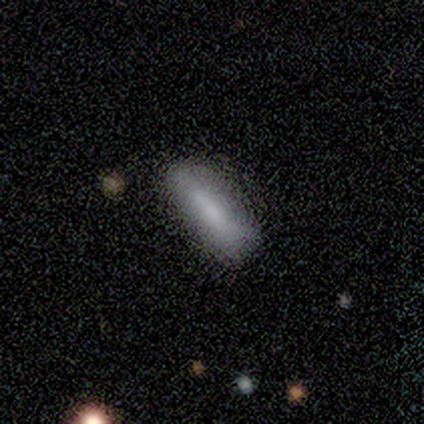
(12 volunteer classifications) Smooth or featured: smooth — 75% (featured or disk — 17%)
How rounded: cigar-shaped — 56% (in between — 44%)
Merging: none — 55% (minor disturbance — 45%)